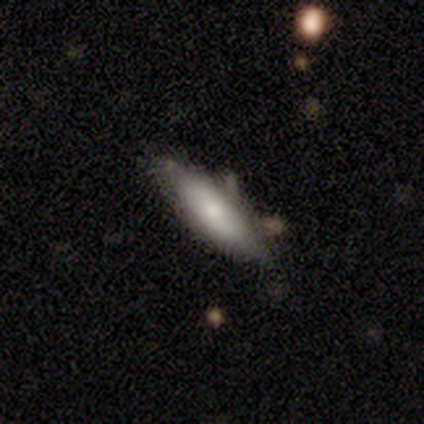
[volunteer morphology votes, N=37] This appears to be a smooth galaxy with no disk features (65%) that is cigar-shaped (67%). Merging: none (66%).